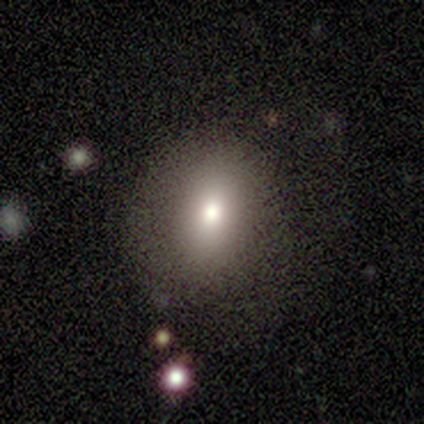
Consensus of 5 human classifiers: Volunteers were most divided on "smooth or featured": smooth: 60%, star or artifact: 40%, featured or disk: 0%. More confident: merging — none (100%); how rounded — round (67%).